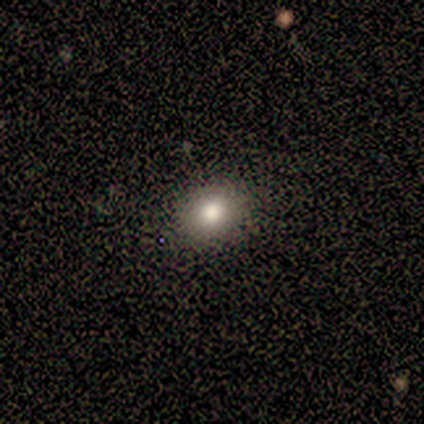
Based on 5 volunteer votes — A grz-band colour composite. It shows a smooth galaxy with no disk features (60%) that is in between round and cigar-shaped (67%). Merging: none (100%).